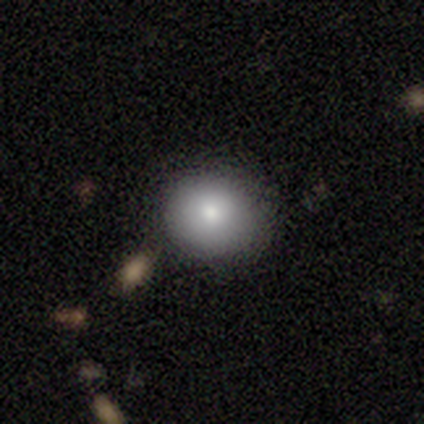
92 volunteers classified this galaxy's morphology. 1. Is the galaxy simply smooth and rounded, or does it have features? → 84% smooth, 11% featured or disk, 5% star or artifact.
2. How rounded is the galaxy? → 86% round, 14% in between, 0% cigar-shaped.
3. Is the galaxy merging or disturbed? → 87% none, 8% minor disturbance, 3% merger, 1% major disturbance.